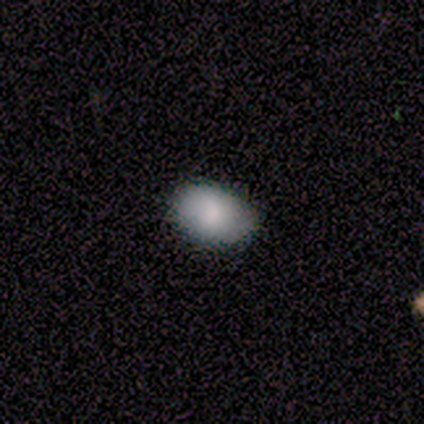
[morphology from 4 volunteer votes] Smooth or featured?
  - smooth: 50% * (tied)
  - featured or disk: 50% * (tied)
  - star or artifact: 0%
How rounded?
  - in between: 100% *
  - round: 0%
  - cigar-shaped: 0%
Merging?
  - none: 50% *
  - minor disturbance: 25%
  - major disturbance: 25%
  - merger: 0%